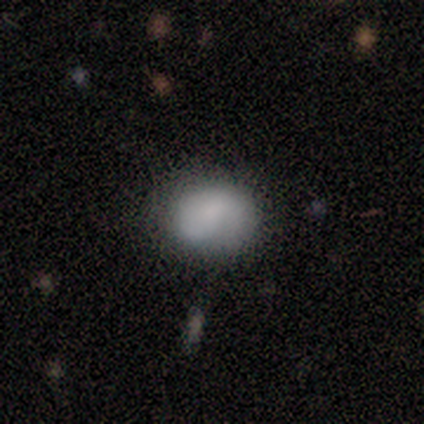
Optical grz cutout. It shows a smooth galaxy with no disk features (80%) that is round (50%, tied with in between). Merging: none (75%).